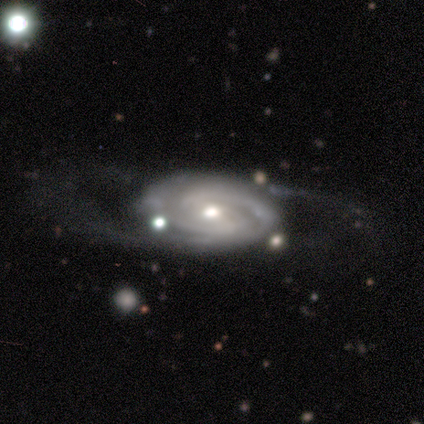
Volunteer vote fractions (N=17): Smooth or featured? 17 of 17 (100%) said featured or disk. Edge-on disk? 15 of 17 (88%) said no. Bar? 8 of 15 (53%) said no. Spiral arms? 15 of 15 (100%) said yes. Spiral winding? 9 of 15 (60%) said tight. Spiral arm count? 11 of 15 (73%) said 2. Bulge size? 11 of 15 (73%) said moderate. Merging? 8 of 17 (47%) said none.